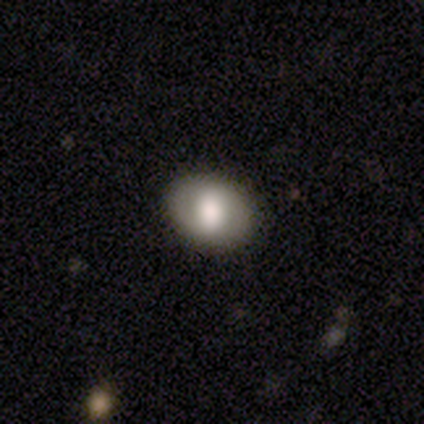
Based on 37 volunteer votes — smooth_or_featured: smooth (p=0.54) [alt: featured or disk p=0.41]
how_rounded: in between (p=0.65) [alt: round p=0.35]
merging: none (p=0.83) [alt: minor disturbance p=0.11]